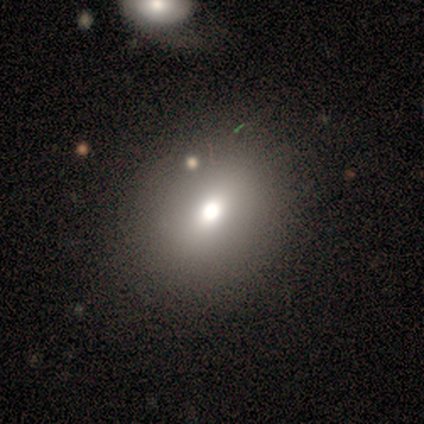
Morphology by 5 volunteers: Overall: smooth (60%; featured or disk 40%). How rounded: round (67%; in between 33%). Merging: none (100%).